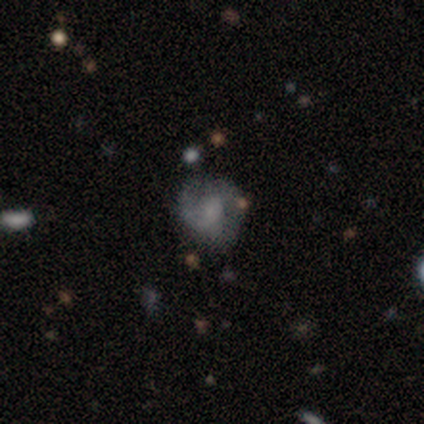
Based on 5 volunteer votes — Smooth or featured: featured or disk — 80% (smooth — 20%)
Edge-on disk: no — 100%
Bar: no — 75% (strong — 25%)
Spiral arms: yes — 100%
Spiral winding: medium — 75% (tight — 25%)
Spiral arm count: 1 — 75% (2 — 25%)
Bulge size: small — 50% (tied with none — 50%)
Merging: none — 80% (minor disturbance — 20%)